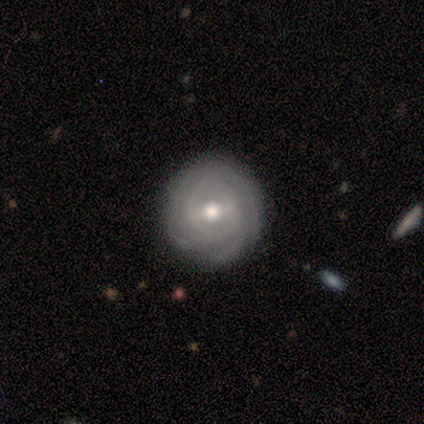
Morphology: type=featured or disk (80%); edge-on=no (100%); bar=strong (50%); spiral arms=yes (100%); winding=tight (50%, tied with loose); arm count=3 (50%); bulge=moderate (100%); merging=none (100%).